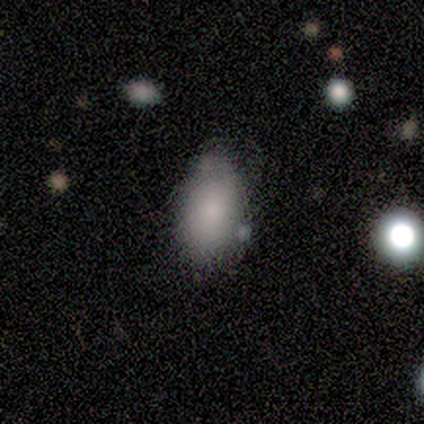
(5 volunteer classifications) Morphology: type=smooth (100%); roundness=in between (80%); merging=minor disturbance (60%).